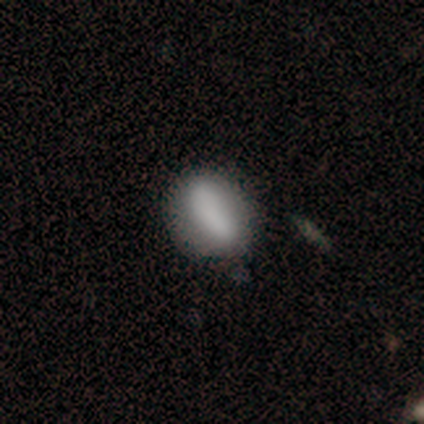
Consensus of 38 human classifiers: This is likely a smooth galaxy (74%). How rounded: likely in between (79%). Merging: possibly none (56%).